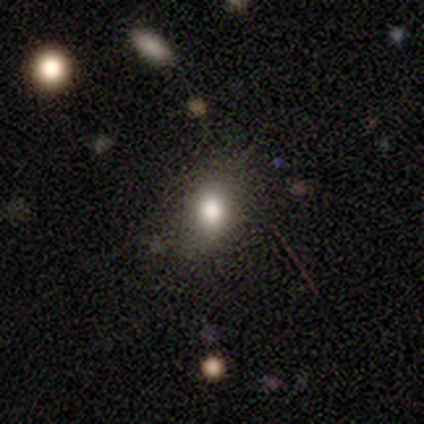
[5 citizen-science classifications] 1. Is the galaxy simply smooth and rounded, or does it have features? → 60% smooth, 40% star or artifact, 0% featured or disk.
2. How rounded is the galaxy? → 67% round, 33% in between, 0% cigar-shaped.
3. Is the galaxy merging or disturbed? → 100% none, 0% minor disturbance, 0% major disturbance, 0% merger.